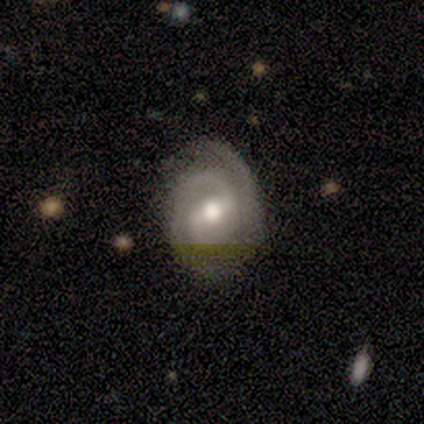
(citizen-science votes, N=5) Morphology: type=featured or disk (80%); edge-on=no (100%); bar=strong (75%); spiral arms=yes (100%); winding=tight (50%, tied with medium); arm count=2 (75%); bulge=moderate (75%); merging=none (80%).